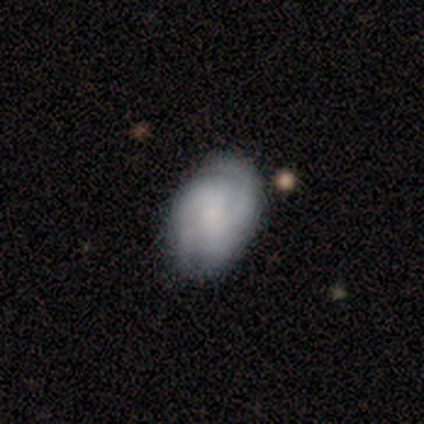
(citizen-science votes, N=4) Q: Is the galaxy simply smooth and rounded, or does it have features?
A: smooth — 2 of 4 (50%, tied with featured or disk).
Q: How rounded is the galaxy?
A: in between — 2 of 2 (100%).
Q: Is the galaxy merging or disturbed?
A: minor disturbance — 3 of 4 (75%).